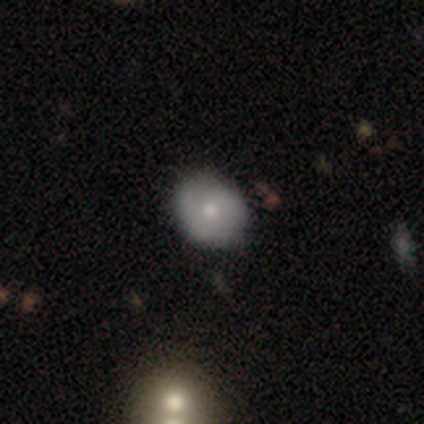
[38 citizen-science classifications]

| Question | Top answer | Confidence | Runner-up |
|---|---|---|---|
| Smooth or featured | smooth | 45% | tied: featured or disk (45%) |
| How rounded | round | 59% | in between (35%) |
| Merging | none | 82% | minor disturbance (15%) |